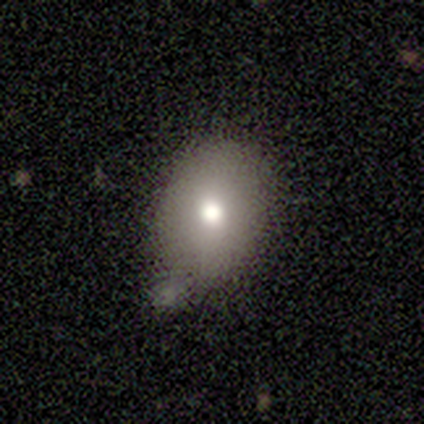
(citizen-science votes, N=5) Volunteers were most divided on "merging" (2-way tie): none: 40%, minor disturbance: 40%, merger: 20%, major disturbance: 0%. More confident: smooth or featured — smooth (80%); how rounded — round (75%).